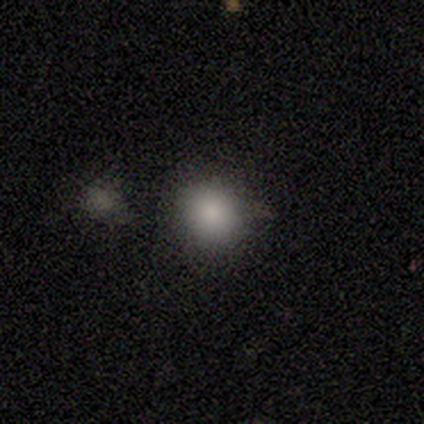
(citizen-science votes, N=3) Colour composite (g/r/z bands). It shows a smooth galaxy with no disk features (67%) that is round (50%, tied with in between). Merging: none (50%, tied with merger).